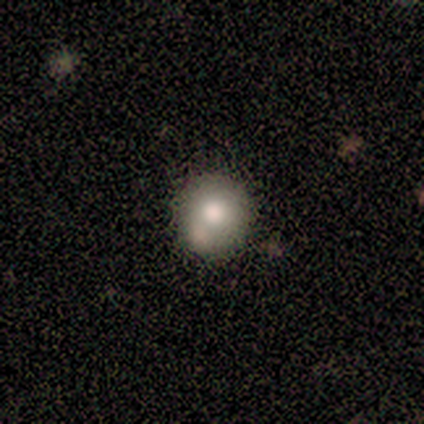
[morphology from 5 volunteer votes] Volunteers were most divided on "smooth or featured": smooth: 60%, star or artifact: 40%, featured or disk: 0%. More confident: how rounded — round (100%); merging — none (67%).